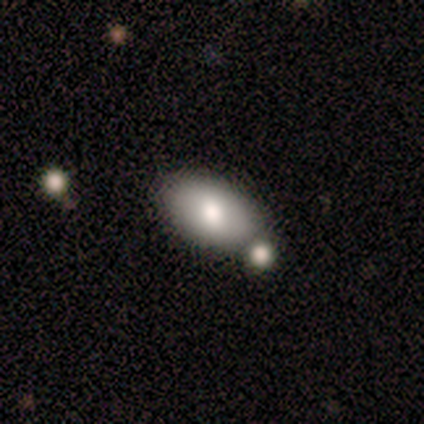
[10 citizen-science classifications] This is clearly a smooth galaxy (90%). How rounded: clearly in between (100%). Merging: clearly none (80%).